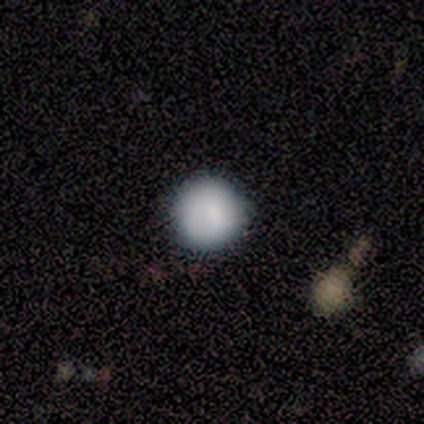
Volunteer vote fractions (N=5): smooth_or_featured: smooth (p=0.60) [alt: star or artifact p=0.40]
how_rounded: round (p=1.00)
merging: none (p=1.00)